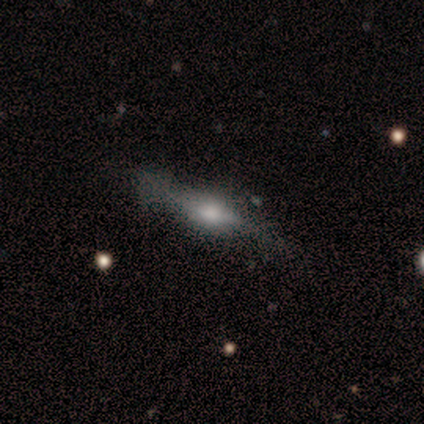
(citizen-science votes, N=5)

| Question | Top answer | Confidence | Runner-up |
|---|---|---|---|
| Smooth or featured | featured or disk | 60% | smooth (40%) |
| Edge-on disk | yes | 100% | — |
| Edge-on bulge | rounded | 67% | boxy (33%) |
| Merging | none | 40% | tied: minor disturbance (40%) |